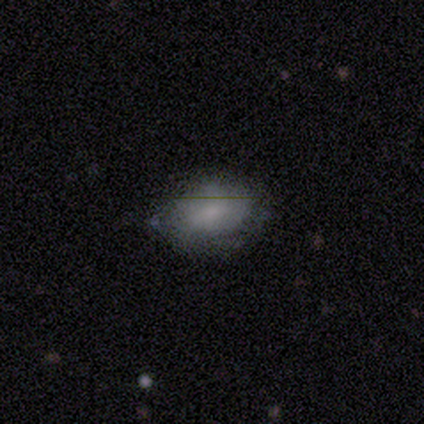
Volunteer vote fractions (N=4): smooth_or_featured: smooth (p=1.00)
how_rounded: round (p=0.50) [tied with: in between p=0.50]
merging: none (p=0.50) [alt: minor disturbance p=0.25]